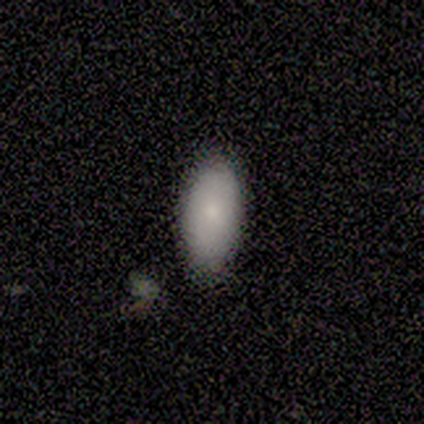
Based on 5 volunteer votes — Smooth or featured: smooth — 100%
How rounded: in between — 100%
Merging: none — 60% (minor disturbance — 40%)